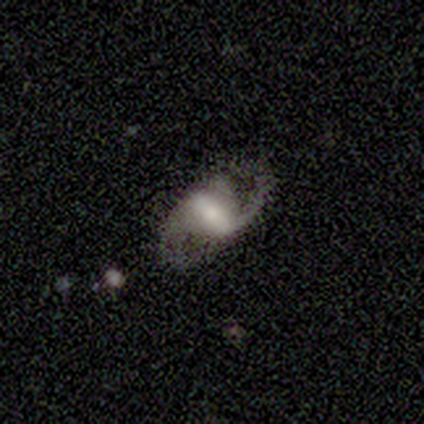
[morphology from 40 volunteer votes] Smooth or featured? 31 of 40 (78%) said featured or disk. Edge-on disk? 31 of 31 (100%) said no. Bar? 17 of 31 (55%) said weak. Spiral arms? 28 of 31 (90%) said yes. Spiral winding? 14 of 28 (50%) said medium. Spiral arm count? 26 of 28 (93%) said 2. Bulge size? 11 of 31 (35%, tied with small) said moderate. Merging? 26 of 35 (74%) said none.